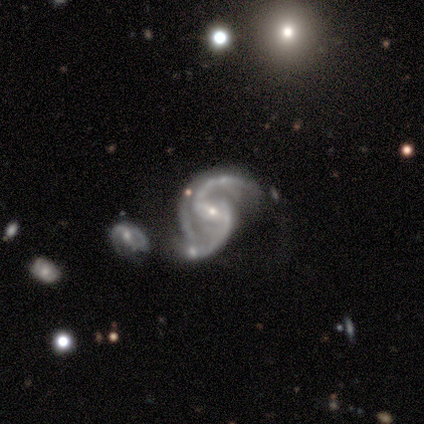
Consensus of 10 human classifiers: A featured or disk galaxy (100%) with a weak bar (60%), 2 (100%) loose (60%) spiral arms (100%) and a small central bulge (80%).

Vote fractions:
- Smooth or featured? featured or disk: 100% / smooth: 0% / star or artifact: 0%
- Edge-on disk? no: 100% / yes: 0%
- Bar? weak: 60% / strong: 30% / no: 10%
- Spiral arms? yes: 100% / no: 0%
- Spiral winding? loose: 60% / medium: 40% / tight: 0%
- Spiral arm count? 2: 100% / 1: 0% / 3: 0% / 4: 0% / more than 4: 0% / can't tell: 0%
- Bulge size? small: 80% / large: 10% / moderate: 10% / dominant: 0% / none: 0%
- Merging? none: 40% / minor disturbance: 30% / major disturbance: 20% / merger: 10%